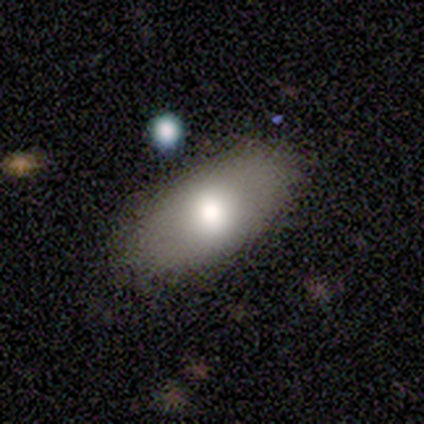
This is likely a smooth galaxy (75%). How rounded: clearly in between (100%). Merging: clearly none (100%).